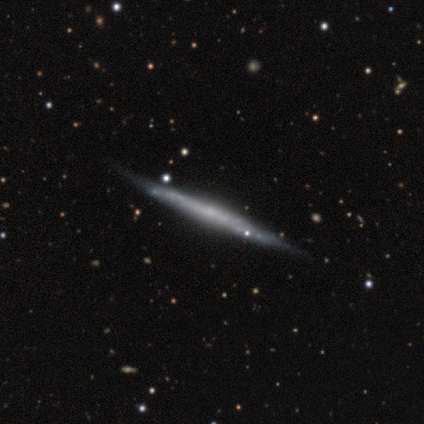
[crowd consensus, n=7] This is clearly a featured or disk galaxy (86%). It is clearly viewed edge-on (83%). Edge-on bulge: likely none (60%). Merging: clearly none (100%).